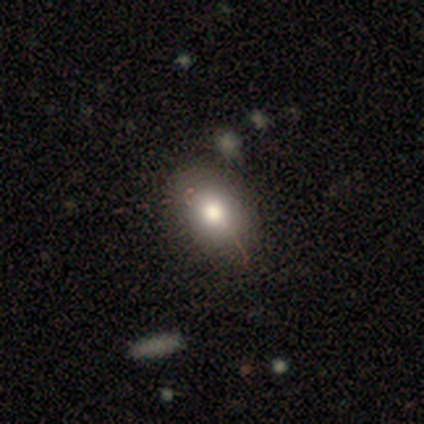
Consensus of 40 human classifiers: Overall: smooth (60%; featured or disk 32%). How rounded: in between (54%; round 46%). Merging: none (57%).